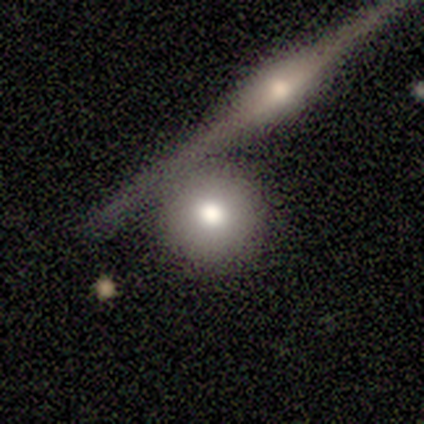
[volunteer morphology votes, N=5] Smooth or featured? smooth (80%)
How rounded? round (75%)
Merging? none (60%)